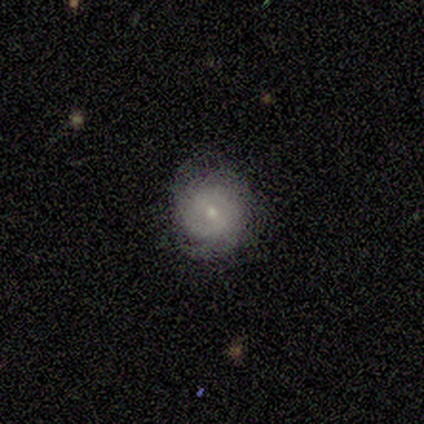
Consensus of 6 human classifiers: Volunteers were most divided on "smooth or featured": smooth: 67%, featured or disk: 33%, star or artifact: 0%. More confident: how rounded — round (100%); merging — none (67%).